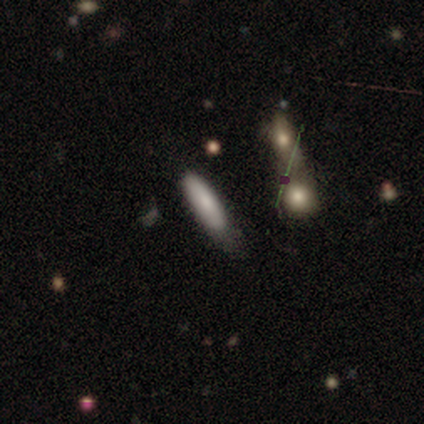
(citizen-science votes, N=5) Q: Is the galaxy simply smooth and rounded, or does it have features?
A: smooth — 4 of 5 (80%).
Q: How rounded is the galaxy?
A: in between — 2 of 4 (50%, tied with cigar-shaped).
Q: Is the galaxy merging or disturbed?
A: none — 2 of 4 (50%, tied with merger).